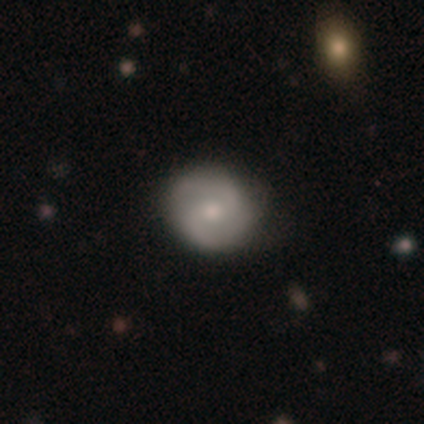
Smooth or featured: featured or disk — 65% (smooth — 30%)
Edge-on disk: no — 100%
Bar: no — 52% (weak — 42%)
Spiral arms: yes — 92% (no — 8%)
Spiral winding: medium — 57% (tight — 24%)
Spiral arm count: 2 — 93% (can't tell — 4%)
Bulge size: moderate — 58% (small — 36%)
Merging: none — 44% (minor disturbance — 8%)